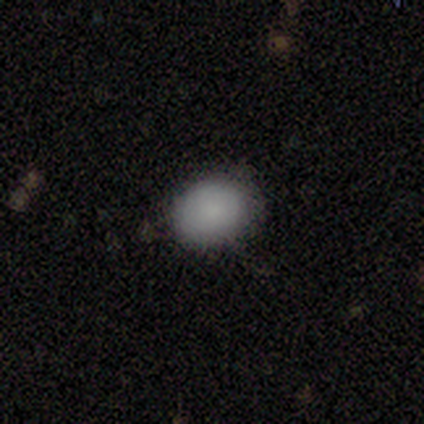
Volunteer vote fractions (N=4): This is likely a smooth galaxy (75%). How rounded: clearly in between (100%). Merging: possibly none (50%, tied with minor disturbance).